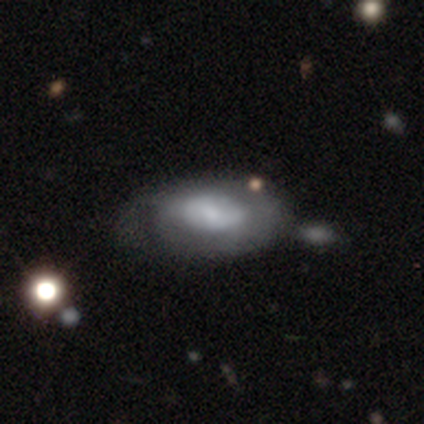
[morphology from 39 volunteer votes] smooth_or_featured: featured or disk (p=0.59) [alt: smooth p=0.38]
disk_edge_on: no (p=0.91) [alt: yes p=0.09]
bar: no (p=0.71) [alt: weak p=0.24]
has_spiral_arms: yes (p=0.76) [alt: no p=0.24]
spiral_winding: tight (p=0.56) [alt: medium p=0.25]
spiral_arm_count: can't tell (p=0.50) [alt: 2 p=0.31]
bulge_size: small (p=0.48) [alt: moderate p=0.33]
merging: none (p=0.24) [alt: minor disturbance p=0.21]